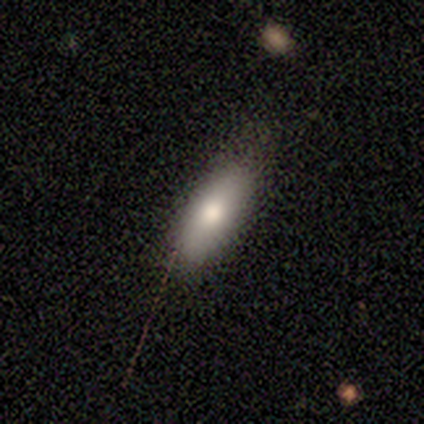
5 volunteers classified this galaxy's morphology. Smooth or featured: smooth — 60% (featured or disk — 40%)
How rounded: in between — 67% (round — 33%)
Merging: none — 80% (minor disturbance — 20%)